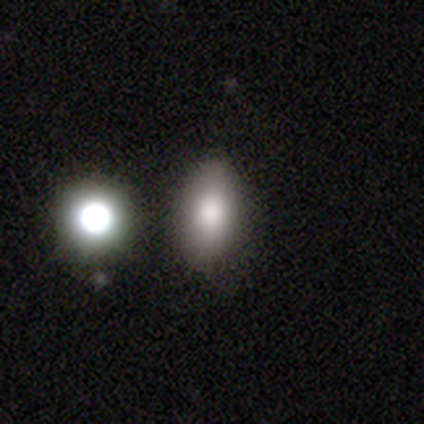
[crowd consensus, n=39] This appears to be a smooth galaxy with no disk features (90%) that is in between round and cigar-shaped (91%). Merging: none (78%).